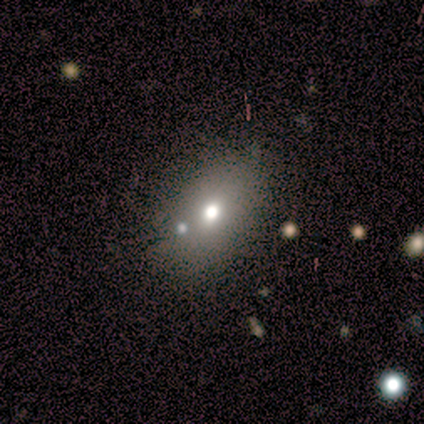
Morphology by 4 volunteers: This is possibly a smooth galaxy (50%). How rounded: clearly in between (100%). Merging: marginally none (33%, tied with major disturbance and merger).